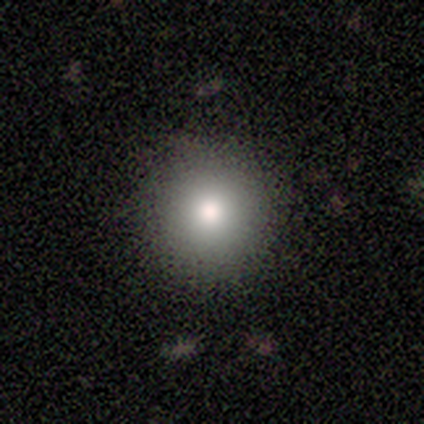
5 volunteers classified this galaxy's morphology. Smooth or featured? smooth (60%)
How rounded? round (100%)
Merging? none (100%)